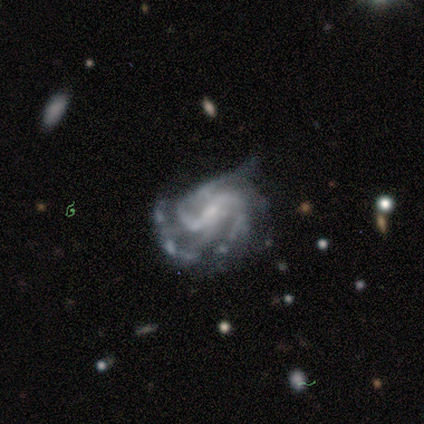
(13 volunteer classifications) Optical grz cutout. It shows a featured or disk galaxy (100%) with a strong bar (54%), 2 (42%, tied with 3) medium (50%) spiral arms (92%) and a small central bulge (54%). Merging: minor disturbance (54%).